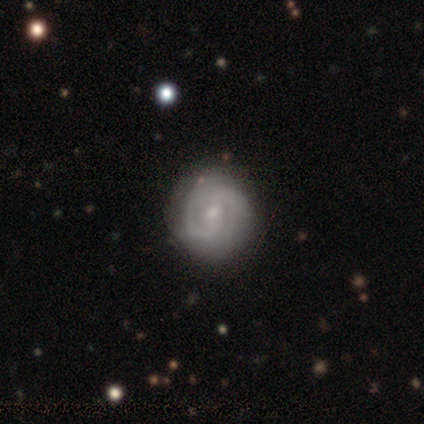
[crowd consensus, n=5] Smooth or featured?
  - featured or disk: 100% *
  - smooth: 0%
  - star or artifact: 0%
Edge-on disk?
  - no: 100% *
  - yes: 0%
Bar?
  - weak: 80% *
  - no: 20%
  - strong: 0%
Spiral arms?
  - yes: 100% *
  - no: 0%
Spiral winding?
  - tight: 60% *
  - medium: 20%
  - loose: 20%
Spiral arm count?
  - can't tell: 60% *
  - 2: 40%
  - 1: 0%
  - 3: 0%
  - 4: 0%
  - more than 4: 0%
Bulge size?
  - small: 80% *
  - moderate: 20%
  - dominant: 0%
  - large: 0%
  - none: 0%
Merging?
  - none: 100% *
  - minor disturbance: 0%
  - major disturbance: 0%
  - merger: 0%